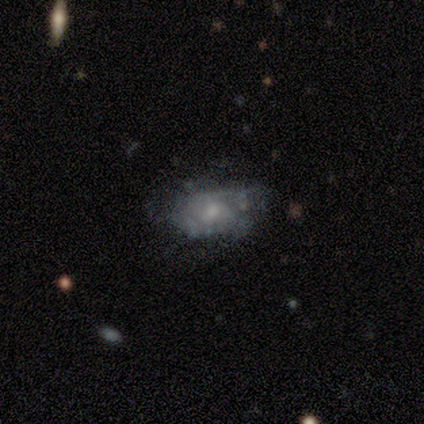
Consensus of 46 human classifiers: Smooth or featured? featured or disk (67%)
Edge-on disk? no (100%)
Bar? no (90%)
Spiral arms? yes (55%)
Spiral winding? tight (76%)
Spiral arm count? can't tell (41%)
Bulge size? small (48%)
Merging? none (62%)